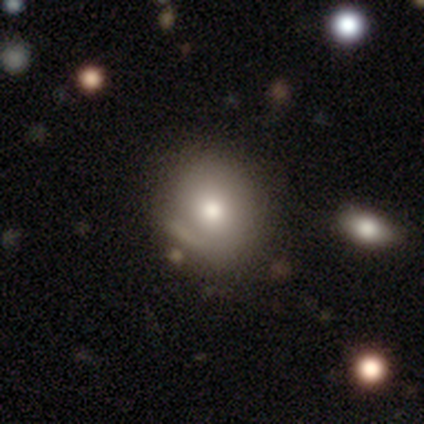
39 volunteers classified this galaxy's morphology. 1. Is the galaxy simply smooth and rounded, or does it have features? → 64% smooth, 23% star or artifact, 13% featured or disk.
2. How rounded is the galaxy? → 68% round, 32% in between, 0% cigar-shaped.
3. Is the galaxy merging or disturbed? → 63% none, 30% minor disturbance, 3% major disturbance, 3% merger.